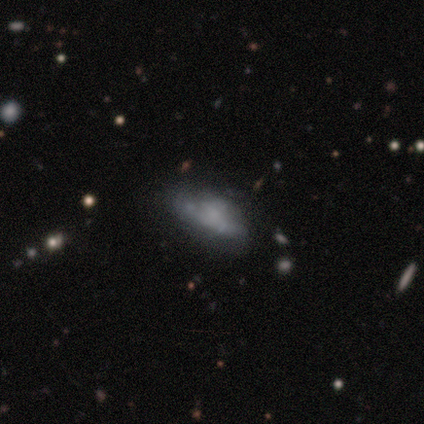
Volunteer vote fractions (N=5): Volunteers were most divided on "smooth or featured": featured or disk: 60%, smooth: 40%, star or artifact: 0%. Remaining: edge-on disk — no (100%); bar — no (100%); spiral arms — no (100%); bulge size — small (67%); merging — major disturbance (40%).